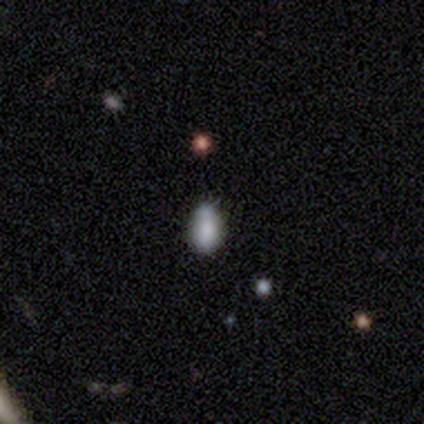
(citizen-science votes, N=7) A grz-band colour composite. It shows a smooth galaxy with no disk features (71%) that is in between round and cigar-shaped (100%). Merging: minor disturbance (57%).